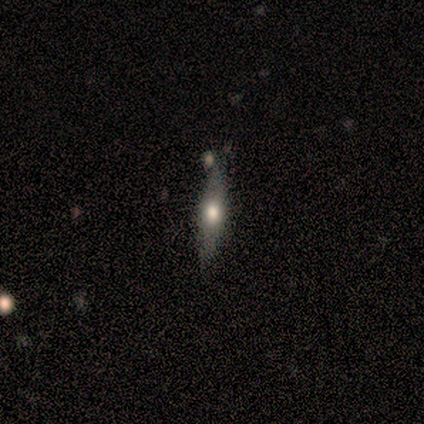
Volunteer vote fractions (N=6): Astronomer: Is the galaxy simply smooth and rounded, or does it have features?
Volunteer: smooth — 50% (runner-up: featured or disk, 33%).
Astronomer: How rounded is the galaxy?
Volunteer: cigar-shaped — 67%.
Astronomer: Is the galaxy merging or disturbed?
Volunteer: none — 100%.